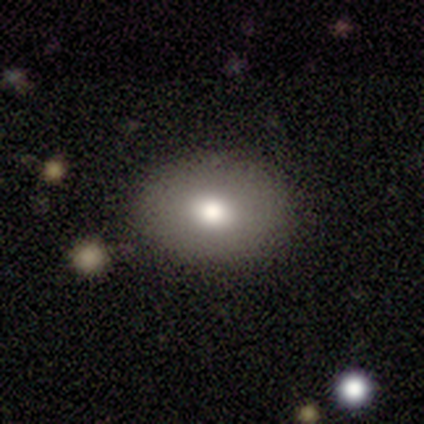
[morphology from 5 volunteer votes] Overall: smooth (60%; featured or disk 40%). How rounded: in between (67%; round 33%). Merging: none (100%).